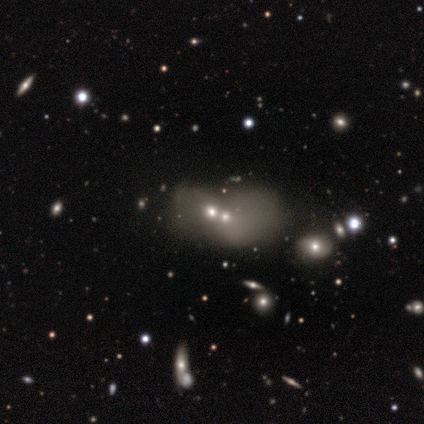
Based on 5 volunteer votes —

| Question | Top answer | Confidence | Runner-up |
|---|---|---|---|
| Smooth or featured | star or artifact | 60% | smooth (20%) |